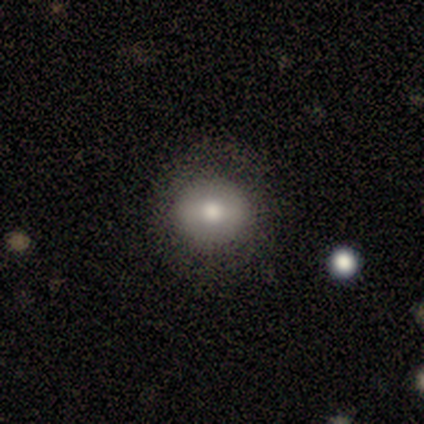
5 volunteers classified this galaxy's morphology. type=smooth (60%); roundness=round (67%); merging=none (80%).